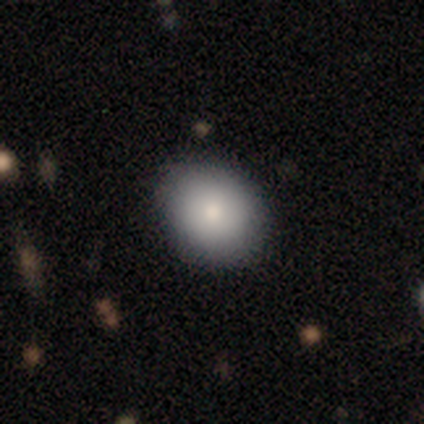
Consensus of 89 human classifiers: Q: Smooth or featured?
A: smooth (83%); runner-up: star or artifact (13%)
Q: How rounded?
A: round (61%); runner-up: in between (39%)
Q: Merging?
A: none (88%); runner-up: minor disturbance (10%)